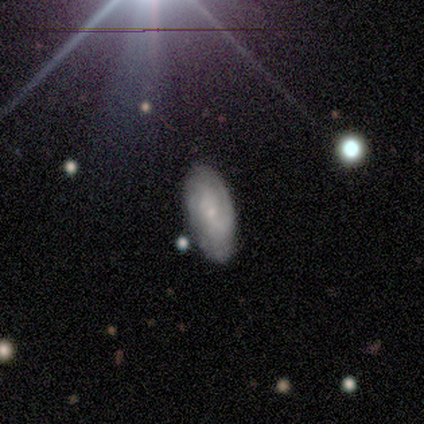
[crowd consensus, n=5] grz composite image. It shows a featured or disk galaxy (100%) with no bar (80%), tight (60%) spiral arms (100%) and a small central bulge (80%). Merging: none (80%).